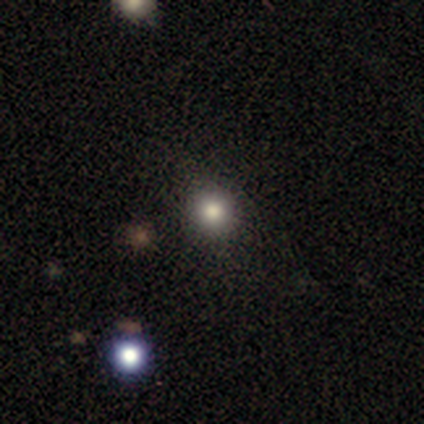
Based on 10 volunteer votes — smooth_or_featured: smooth (p=0.80) [alt: featured or disk p=0.10]
how_rounded: round (p=1.00)
merging: none (p=1.00)